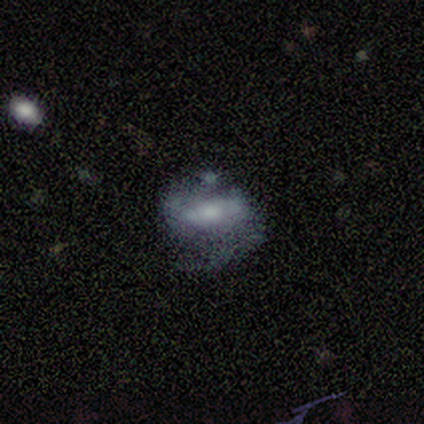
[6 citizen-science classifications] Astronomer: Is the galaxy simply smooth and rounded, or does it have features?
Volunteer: featured or disk — 67%.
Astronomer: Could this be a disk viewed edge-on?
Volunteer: no — 100%.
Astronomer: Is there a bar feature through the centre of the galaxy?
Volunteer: weak — 50%, tied with no at 50%.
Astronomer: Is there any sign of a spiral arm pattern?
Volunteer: yes — 75%.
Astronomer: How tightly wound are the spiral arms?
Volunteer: medium — 67%.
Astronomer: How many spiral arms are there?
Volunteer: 2 — 67%.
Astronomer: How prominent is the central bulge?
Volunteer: large — 50%.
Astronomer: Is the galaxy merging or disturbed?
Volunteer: minor disturbance — 60% (runner-up: major disturbance, 40%).